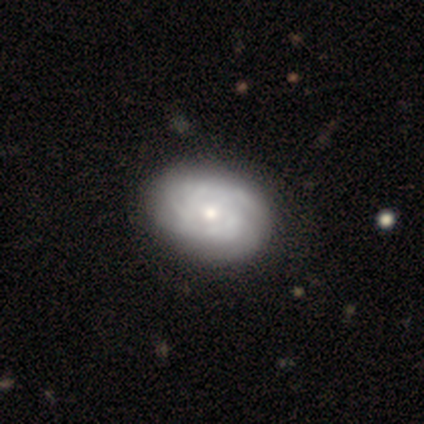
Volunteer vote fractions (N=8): A featured or disk galaxy (100%) with no bar (62%), tight (43%, tied with medium) spiral arms (88%) and a small central bulge (88%).

Vote fractions:
- Smooth or featured? featured or disk: 100% / smooth: 0% / star or artifact: 0%
- Edge-on disk? no: 100% / yes: 0%
- Bar? no: 62% / weak: 25% / strong: 12%
- Spiral arms? yes: 88% / no: 12%
- Spiral winding? tight: 43% (tied) / medium: 43% (tied) / loose: 14%
- Spiral arm count? can't tell: 71% / 3: 14% / 4: 14% / 1: 0% / 2: 0% / more than 4: 0%
- Bulge size? small: 88% / moderate: 12% / dominant: 0% / large: 0% / none: 0%
- Merging? none: 88% / minor disturbance: 12% / major disturbance: 0% / merger: 0%